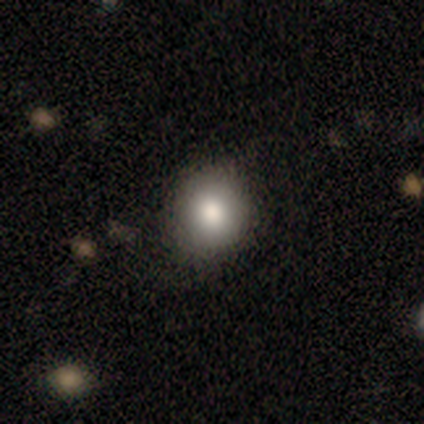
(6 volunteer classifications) smooth-or-featured: smooth: 100% | featured or disk: 0% | star or artifact: 0%
  how-rounded: in between: 67% | round: 33% | cigar-shaped: 0%
  merging: none: 83% | major disturbance: 17% | minor disturbance: 0% | merger: 0%